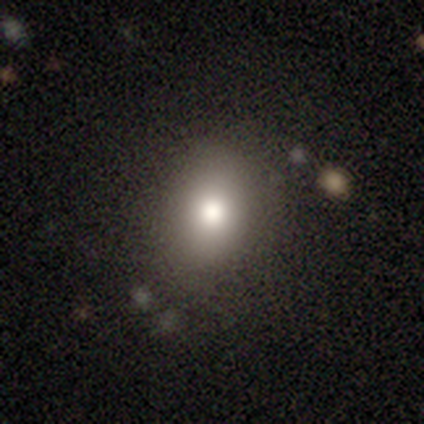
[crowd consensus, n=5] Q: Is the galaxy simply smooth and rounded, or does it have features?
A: smooth — 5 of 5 (100%).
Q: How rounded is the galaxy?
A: in between — 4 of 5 (80%).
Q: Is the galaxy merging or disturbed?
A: none — 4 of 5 (80%).